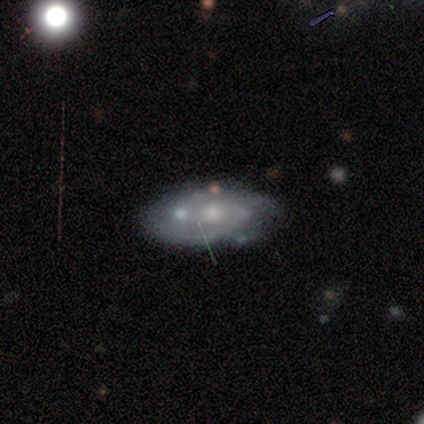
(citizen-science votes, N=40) This is likely a featured or disk galaxy (78%). It is clearly not viewed edge-on (97%). Bar: likely no (73%). Spiral arm pattern: likely yes (73%). Spiral arm count: likely 2 (64%). Spiral winding: possibly medium (50%). Central bulge: possibly small (57%). Merging: possibly none (59%).